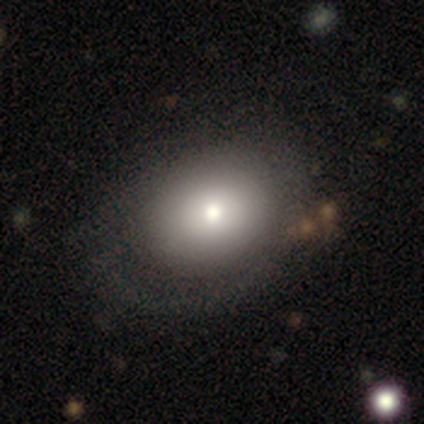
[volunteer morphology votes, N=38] Overall: smooth (63%; featured or disk 29%). How rounded: in between (62%; round 38%). Merging: none (49%; minor disturbance 17%).